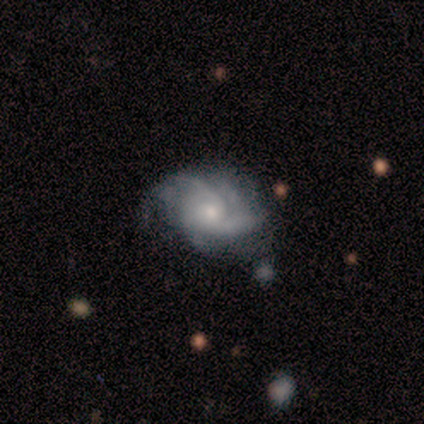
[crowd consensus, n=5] smooth-or-featured: featured or disk: 60% | smooth: 20% | star or artifact: 20%
  disk-edge-on: no: 100% | yes: 0%
    bar: no: 67% | weak: 33% | strong: 0%
    has-spiral-arms: yes: 100% | no: 0%
      spiral-winding: tight: 67% | loose: 33% | medium: 0%
      spiral-arm-count: can't tell: 100% | 1: 0% | 2: 0% | 3: 0% | 4: 0% | more than 4: 0%
    bulge-size: small: 67% | large: 33% | dominant: 0% | moderate: 0% | none: 0%
  merging: none: 100% | minor disturbance: 0% | major disturbance: 0% | merger: 0%